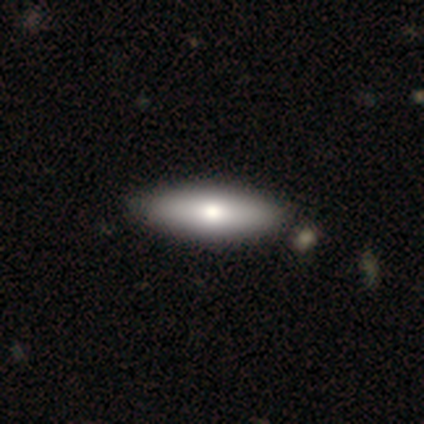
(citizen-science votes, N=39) Overall: smooth (87%). How rounded: in between (56%; cigar-shaped 44%). Merging: none (56%).